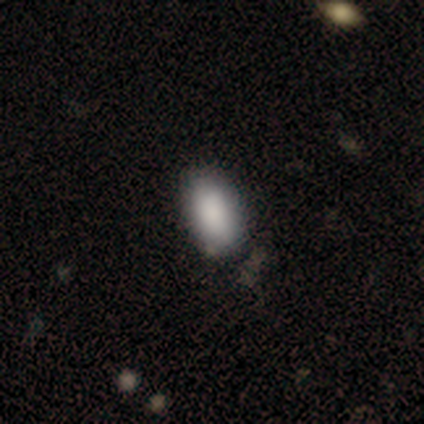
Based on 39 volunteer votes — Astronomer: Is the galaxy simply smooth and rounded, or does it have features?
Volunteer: smooth — 92%.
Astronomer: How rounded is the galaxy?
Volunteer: in between — 92%.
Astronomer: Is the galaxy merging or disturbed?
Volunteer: none — 82%.